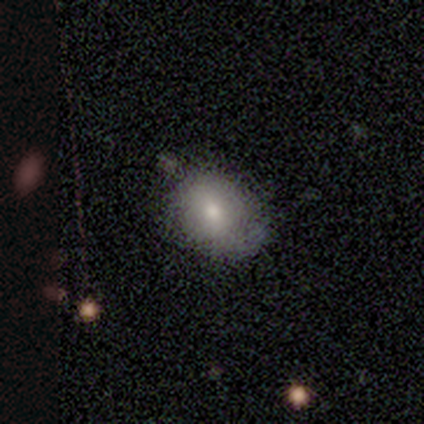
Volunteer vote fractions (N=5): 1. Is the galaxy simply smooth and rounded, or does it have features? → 100% smooth, 0% featured or disk, 0% star or artifact.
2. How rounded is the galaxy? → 80% in between, 20% round, 0% cigar-shaped.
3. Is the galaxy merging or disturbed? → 80% none, 20% minor disturbance, 0% major disturbance, 0% merger.